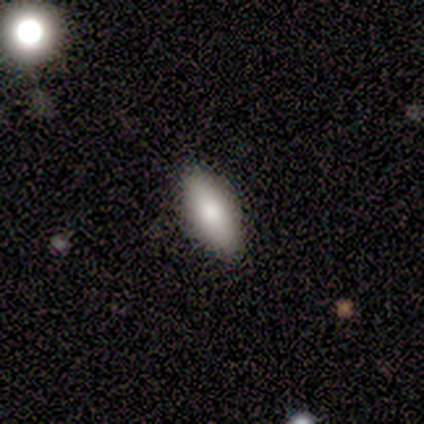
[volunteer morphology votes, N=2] Smooth or featured? smooth (100%)
How rounded? in between (50%, tied with cigar-shaped)
Merging? none (100%)